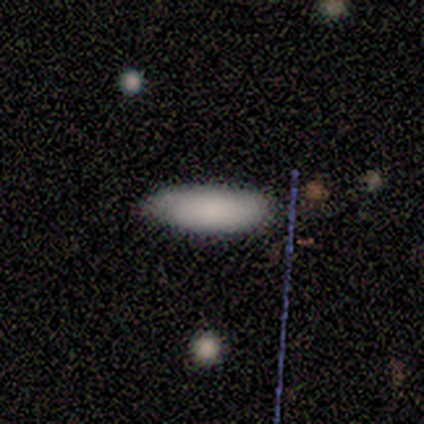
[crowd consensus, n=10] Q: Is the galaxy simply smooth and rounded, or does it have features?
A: smooth — 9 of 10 (90%).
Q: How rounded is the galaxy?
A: in between — 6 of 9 (67%).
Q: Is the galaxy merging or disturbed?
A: none — 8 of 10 (80%).